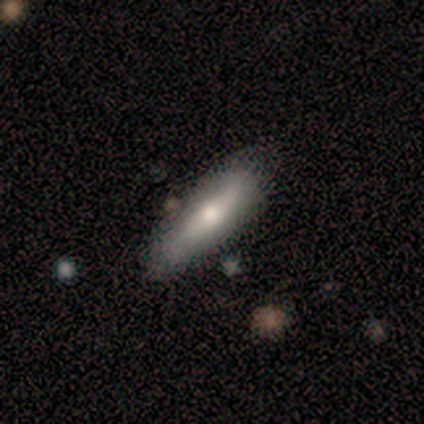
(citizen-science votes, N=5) Smooth or featured?
  - smooth: 60% *
  - featured or disk: 20%
  - star or artifact: 20%
How rounded?
  - cigar-shaped: 100% *
  - round: 0%
  - in between: 0%
Merging?
  - none: 75% *
  - minor disturbance: 25%
  - major disturbance: 0%
  - merger: 0%